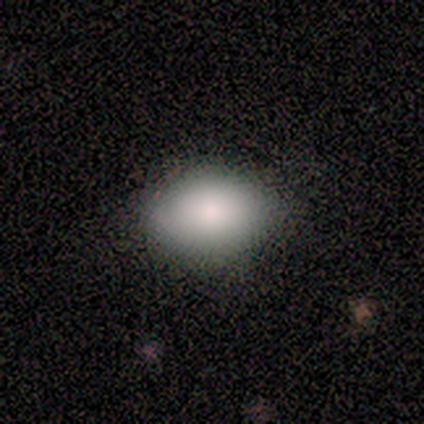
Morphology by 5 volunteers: smooth-or-featured: smooth: 100% | featured or disk: 0% | star or artifact: 0%
  how-rounded: in between: 100% | round: 0% | cigar-shaped: 0%
  merging: none: 80% | minor disturbance: 20% | major disturbance: 0% | merger: 0%